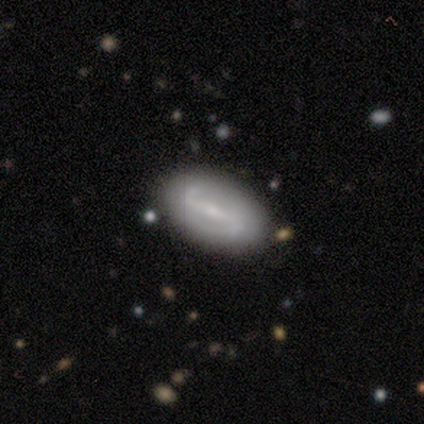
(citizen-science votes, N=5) Volunteers were most divided on "spiral winding" (2-way tie): medium: 50%, loose: 50%, tight: 0%. More confident: edge-on disk — no (100%); bar — weak (100%); spiral arm count — 2 (100%); merging — none (100%); spiral arms — yes (67%); bulge size — small (67%); smooth or featured — featured or disk (60%).